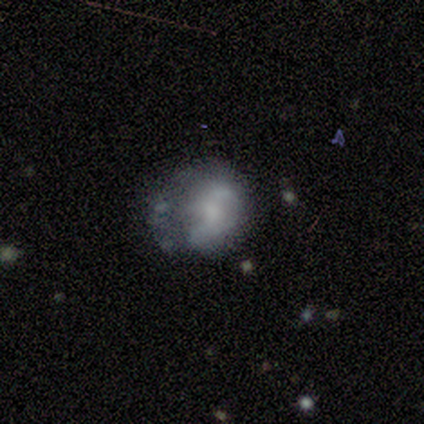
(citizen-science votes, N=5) Smooth or featured: smooth — 40% (tied with featured or disk — 40%)
How rounded: round — 100%
Merging: minor disturbance — 50% (none — 25%)